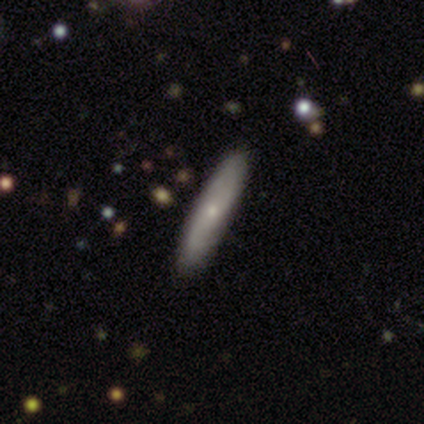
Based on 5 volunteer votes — Volunteers were most divided on "spiral winding" (2-way tie): tight: 50%, medium: 50%, loose: 0%. More confident: bar — no (100%); spiral arm count — can't tell (100%); bulge size — small (100%); merging — none (100%); smooth or featured — featured or disk (80%); edge-on disk — no (75%); spiral arms — yes (67%).